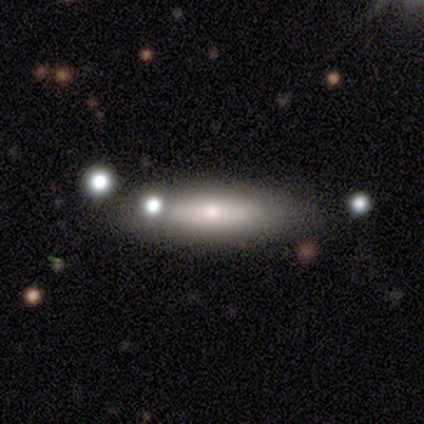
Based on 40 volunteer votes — Volunteers were most divided on "smooth or featured": smooth: 52%, featured or disk: 45%, star or artifact: 2%. More confident: merging — none (92%); how rounded — in between (67%).